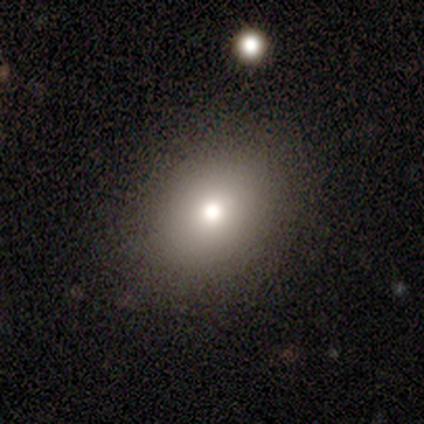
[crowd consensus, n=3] smooth 67%, featured or disk 33%, star or artifact 0%. Down the decision tree: how rounded — round (50%, tied with in between); merging — none (100%).